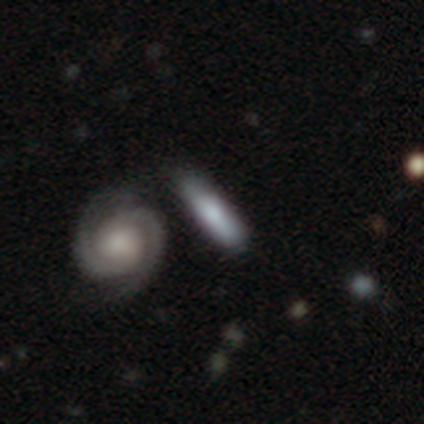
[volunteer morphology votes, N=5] featured or disk 60%, smooth 40%, star or artifact 0%. Down the decision tree: edge-on disk — yes (67%); edge-on bulge — boxy (50%, tied with none); merging — none (40%, tied with minor disturbance).